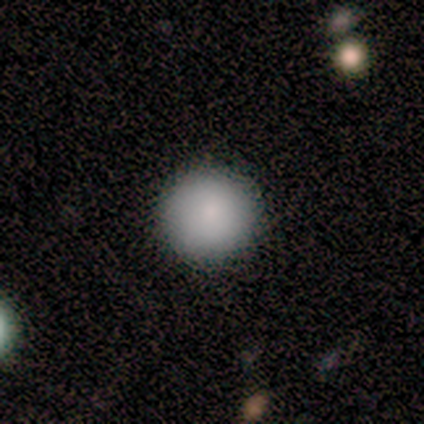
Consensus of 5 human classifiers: This is clearly a smooth galaxy (100%). How rounded: likely round (60%). Merging: clearly none (100%).